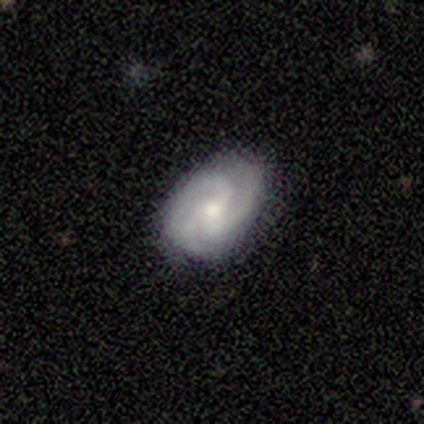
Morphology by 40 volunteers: Smooth or featured? 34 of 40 (85%) said featured or disk. Edge-on disk? 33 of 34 (97%) said no. Bar? 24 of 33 (73%) said no. Spiral arms? 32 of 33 (97%) said yes. Spiral winding? 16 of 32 (50%, tied with medium) said tight. Spiral arm count? 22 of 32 (69%) said 3. Bulge size? 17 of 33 (52%) said small. Merging? 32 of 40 (80%) said none.